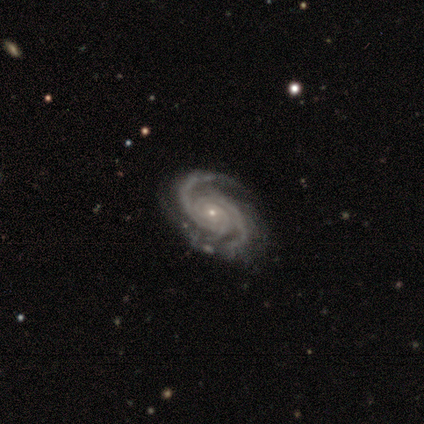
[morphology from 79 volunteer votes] featured or disk 94%, smooth 4%, star or artifact 3%. Down the decision tree: edge-on disk — no (99%); bar — no (73%); spiral arms — yes (99%); spiral arm count — 2 (51%); spiral winding — tight (56%); bulge size — small (88%); merging — none (40%).